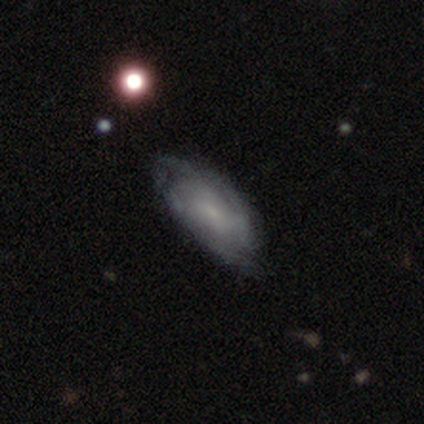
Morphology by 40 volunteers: featured or disk 78%, smooth 22%, star or artifact 0%. Down the decision tree: edge-on disk — no (94%); bar — no (52%); spiral arms — yes (83%); spiral arm count — can't tell (62%); spiral winding — medium (46%); bulge size — small (83%); merging — none (45%).